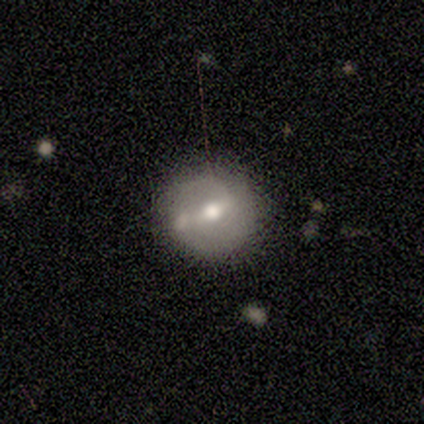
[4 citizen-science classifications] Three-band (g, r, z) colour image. It shows a featured or disk galaxy (75%) with a strong bar (67%), 2 (100%) tight (33%, tied with medium and loose) spiral arms (100%) and a moderate central bulge (100%). Merging: merger (67%).